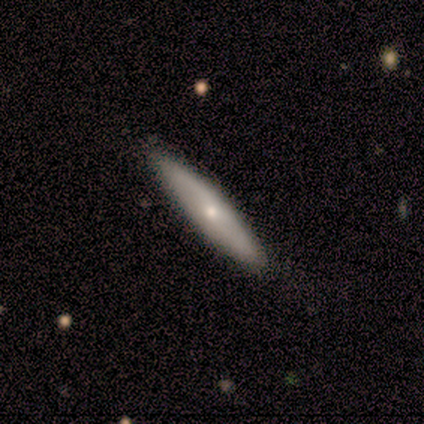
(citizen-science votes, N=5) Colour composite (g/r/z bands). It shows a smooth galaxy with no disk features (60%) that is cigar-shaped (100%). Merging: none (75%).